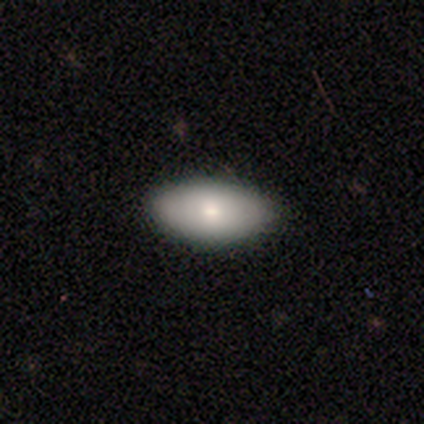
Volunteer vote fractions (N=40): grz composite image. It shows a smooth galaxy with no disk features (72%) that is in between round and cigar-shaped (93%). Merging: none (95%).